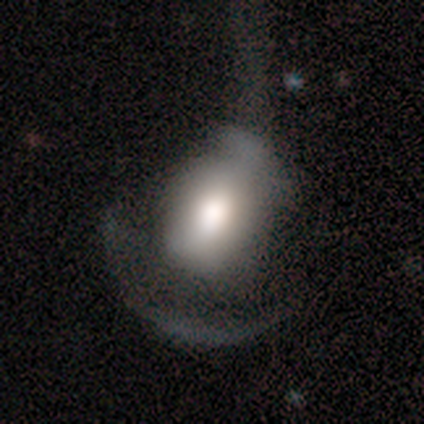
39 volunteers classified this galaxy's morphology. This appears to be a smooth galaxy with no disk features (59%) that is in between round and cigar-shaped (57%). Merging: major disturbance (55%).